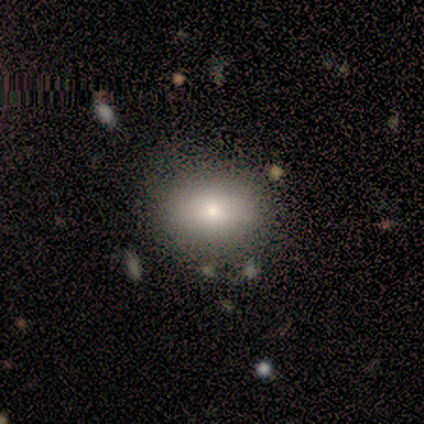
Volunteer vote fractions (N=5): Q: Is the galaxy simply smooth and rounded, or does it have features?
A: smooth — 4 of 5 (80%).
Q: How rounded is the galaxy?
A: round — 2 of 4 (50%, tied with in between).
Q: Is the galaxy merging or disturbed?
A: none — 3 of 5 (60%).